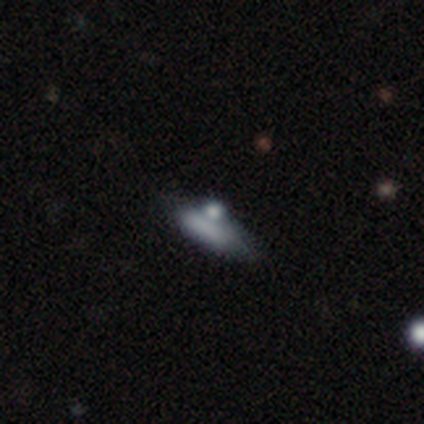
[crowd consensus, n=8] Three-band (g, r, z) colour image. It shows a smooth galaxy with no disk features (88%) that is cigar-shaped (71%). Merging: none (88%).